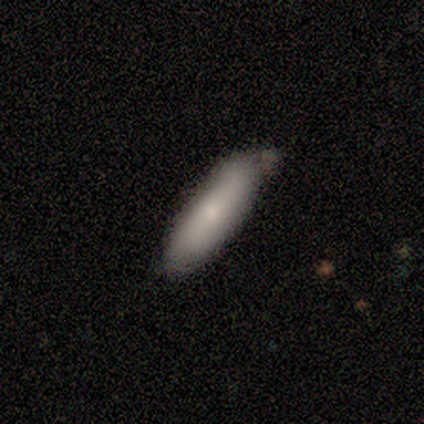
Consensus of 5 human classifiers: smooth-or-featured: smooth: 60% | featured or disk: 20% | star or artifact: 20%
  how-rounded: cigar-shaped: 67% | in between: 33% | round: 0%
  merging: minor disturbance: 100% | none: 0% | major disturbance: 0% | merger: 0%